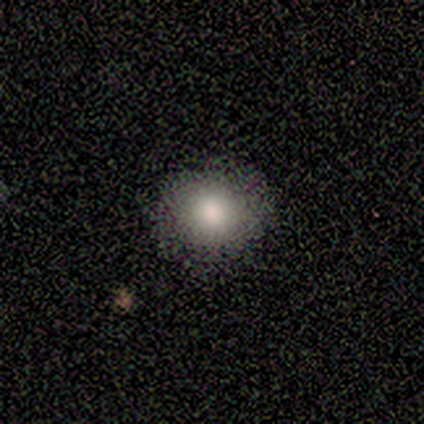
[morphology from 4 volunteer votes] Smooth or featured?
  - smooth: 50% * (tied)
  - star or artifact: 50% * (tied)
  - featured or disk: 0%
How rounded?
  - round: 50% * (tied)
  - in between: 50% * (tied)
  - cigar-shaped: 0%
Merging?
  - none: 100% *
  - minor disturbance: 0%
  - major disturbance: 0%
  - merger: 0%